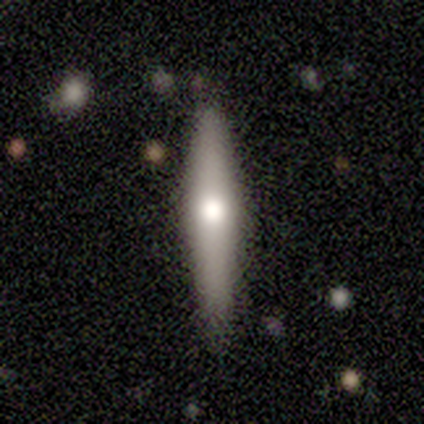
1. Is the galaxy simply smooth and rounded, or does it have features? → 60% smooth, 40% featured or disk, 0% star or artifact.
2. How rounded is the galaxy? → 100% cigar-shaped, 0% round, 0% in between.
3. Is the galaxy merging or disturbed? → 100% none, 0% minor disturbance, 0% major disturbance, 0% merger.